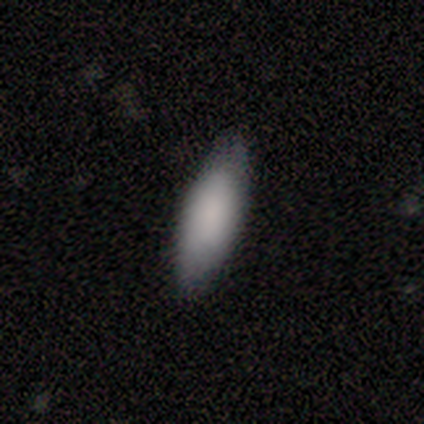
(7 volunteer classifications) Smooth or featured: smooth — 100%
How rounded: in between — 86% (cigar-shaped — 14%)
Merging: none — 86% (minor disturbance — 14%)